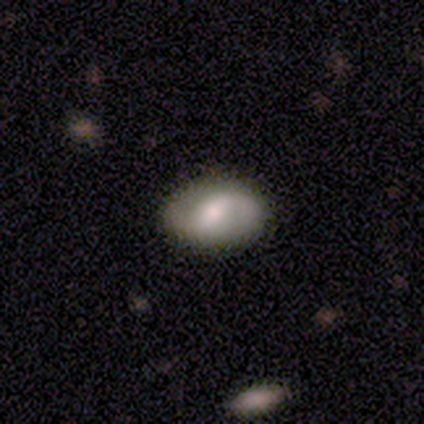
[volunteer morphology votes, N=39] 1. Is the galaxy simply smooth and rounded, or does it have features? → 59% featured or disk, 38% smooth, 3% star or artifact.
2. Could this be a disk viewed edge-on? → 96% no, 4% yes.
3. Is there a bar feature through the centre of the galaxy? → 59% weak, 23% no, 18% strong.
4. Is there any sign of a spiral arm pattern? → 82% yes, 18% no.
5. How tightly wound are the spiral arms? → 44% loose, 33% tight, 22% medium.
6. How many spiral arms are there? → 78% 2, 17% 1, 6% can't tell, 0% 3, 0% 4, 0% more than 4.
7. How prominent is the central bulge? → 59% moderate, 23% large, 9% small, 5% dominant, 5% none.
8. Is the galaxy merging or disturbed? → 82% none, 16% minor disturbance, 3% major disturbance, 0% merger.